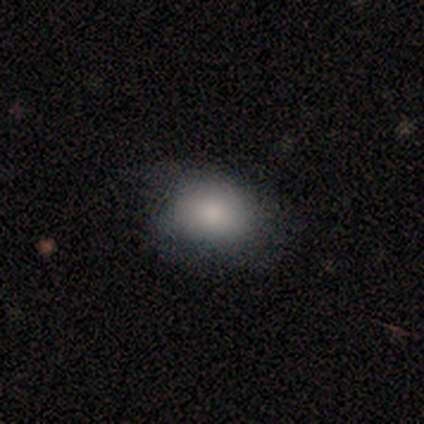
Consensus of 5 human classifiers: Smooth or featured? smooth (40%, tied with featured or disk)
How rounded? round (50%, tied with in between)
Merging? none (100%)